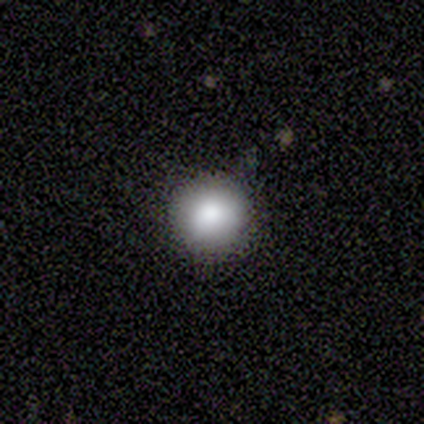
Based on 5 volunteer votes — Smooth or featured? smooth (100%)
How rounded? round (100%)
Merging? none (100%)